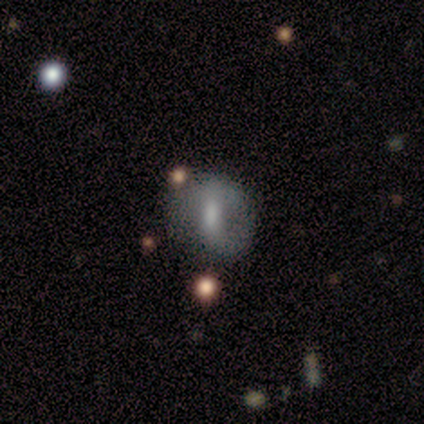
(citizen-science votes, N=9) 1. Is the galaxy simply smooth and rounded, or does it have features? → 56% smooth, 33% featured or disk, 11% star or artifact.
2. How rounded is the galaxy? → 80% round, 20% in between, 0% cigar-shaped.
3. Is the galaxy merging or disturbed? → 50% none (tied), 50% minor disturbance (tied), 0% major disturbance, 0% merger.